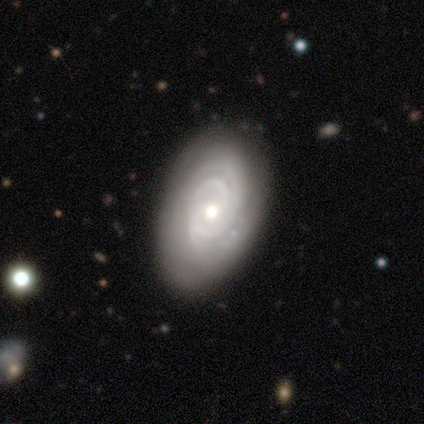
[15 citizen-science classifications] Q: Smooth or featured?
A: featured or disk (87%); runner-up: smooth (7%)
Q: Edge-on disk?
A: no (92%); runner-up: yes (8%)
Q: Bar?
A: no (83%); runner-up: weak (17%)
Q: Spiral arms?
A: yes (83%); runner-up: no (17%)
Q: Spiral winding?
A: tight (60%); runner-up: medium (20%)
Q: Spiral arm count?
A: can't tell (60%); runner-up: 2 (30%)
Q: Bulge size?
A: moderate (83%); runner-up: small (17%)
Q: Merging?
A: none (93%); runner-up: merger (7%)